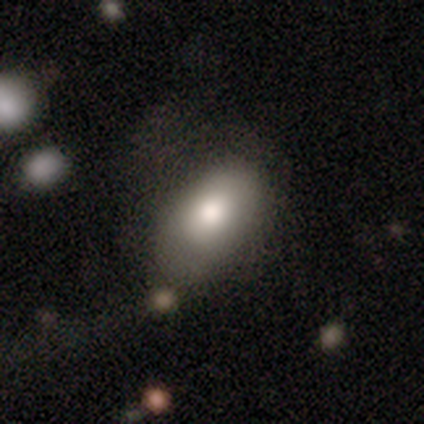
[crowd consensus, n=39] smooth 72%, featured or disk 15%, star or artifact 13%. Down the decision tree: how rounded — in between (86%); merging — none (50%).